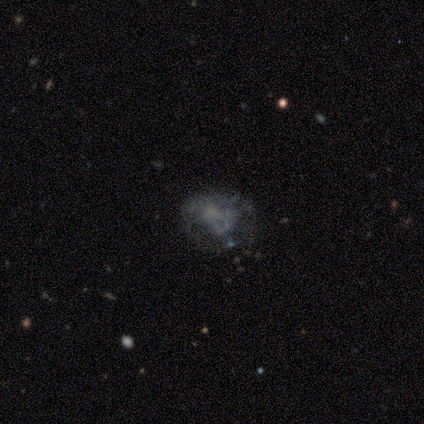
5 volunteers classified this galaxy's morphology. Q: Smooth or featured?
A: star or artifact (60%); runner-up: featured or disk (40%)